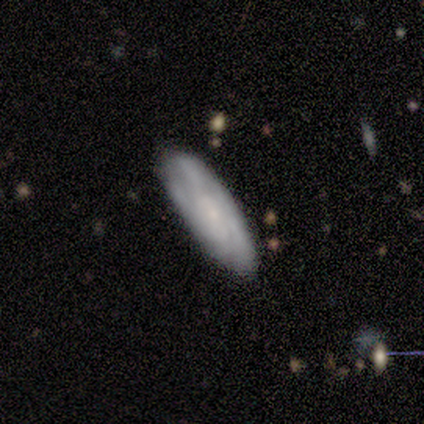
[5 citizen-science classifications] Overall: featured or disk (80%). Edge-on disk: no (75%). Bar: no (67%; weak 33%). Spiral arms: yes (67%; no 33%). Spiral arm count: 3 (50%, tied with 4). Spiral winding: medium (100%). Bulge size: small (100%). Merging: none (60%; minor disturbance 20%).